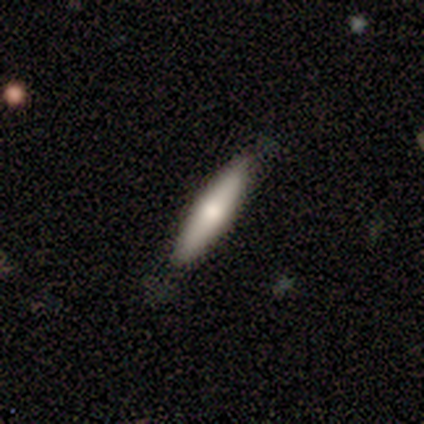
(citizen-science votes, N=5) Morphology: type=smooth (80%); roundness=cigar-shaped (100%); merging=none (75%).